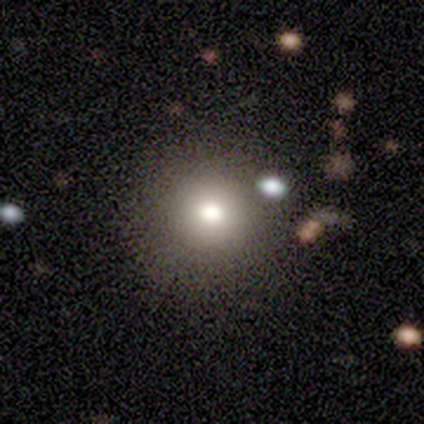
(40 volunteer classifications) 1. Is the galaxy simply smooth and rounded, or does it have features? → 82% smooth, 10% featured or disk, 8% star or artifact.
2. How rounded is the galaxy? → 85% round, 12% in between, 3% cigar-shaped.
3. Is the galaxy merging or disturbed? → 73% none, 11% minor disturbance, 11% major disturbance, 5% merger.